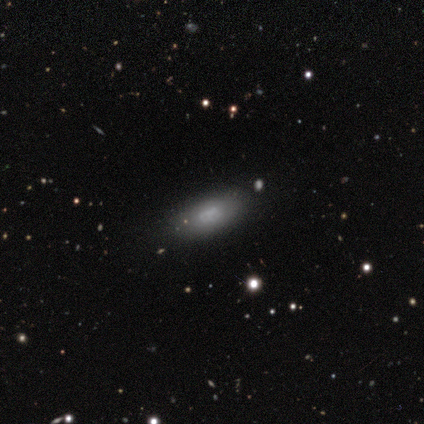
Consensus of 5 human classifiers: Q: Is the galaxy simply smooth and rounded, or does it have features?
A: smooth — 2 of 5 (40%, tied with featured or disk).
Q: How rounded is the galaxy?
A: in between — 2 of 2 (100%).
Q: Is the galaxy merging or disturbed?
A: none — 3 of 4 (75%).